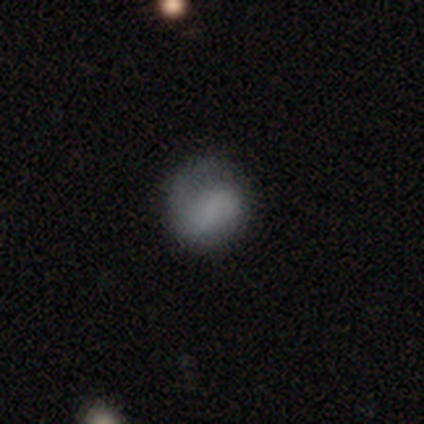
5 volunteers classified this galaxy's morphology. Smooth or featured? 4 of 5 (80%) said smooth. How rounded? 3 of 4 (75%) said round. Merging? 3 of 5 (60%) said none.